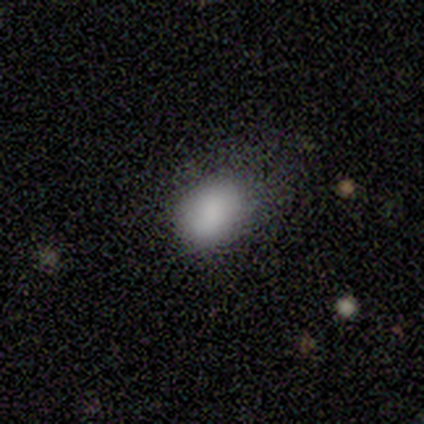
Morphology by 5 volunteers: Q: Smooth or featured?
A: smooth (60%); runner-up: featured or disk (20%)
Q: How rounded?
A: in between (100%)
Q: Merging?
A: none (100%)